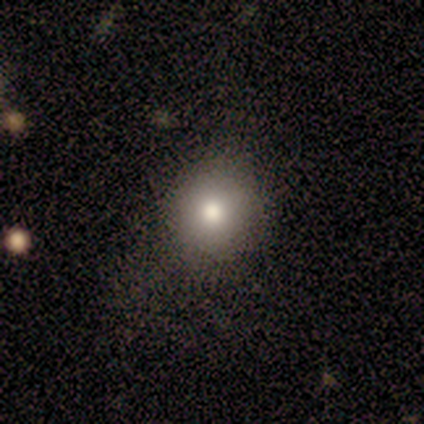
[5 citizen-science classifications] smooth-or-featured: smooth: 80% | star or artifact: 20% | featured or disk: 0%
  how-rounded: round: 75% | in between: 25% | cigar-shaped: 0%
  merging: none: 75% | minor disturbance: 25% | major disturbance: 0% | merger: 0%